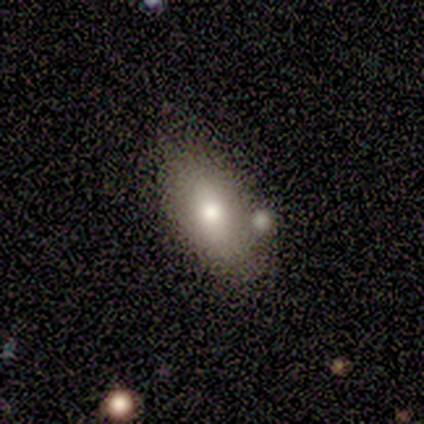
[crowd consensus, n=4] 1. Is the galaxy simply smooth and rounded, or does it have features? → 75% smooth, 25% star or artifact, 0% featured or disk.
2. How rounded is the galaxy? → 100% in between, 0% round, 0% cigar-shaped.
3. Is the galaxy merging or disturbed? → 67% none, 33% merger, 0% minor disturbance, 0% major disturbance.